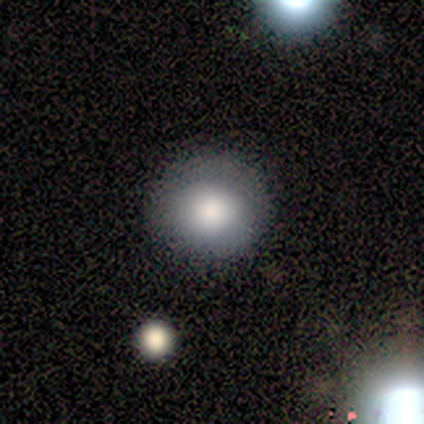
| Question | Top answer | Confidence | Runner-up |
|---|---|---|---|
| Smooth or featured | smooth | 60% | featured or disk (20%) |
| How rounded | round | 100% | — |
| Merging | none | 100% | — |